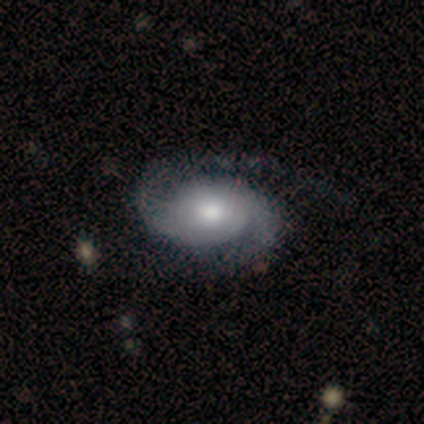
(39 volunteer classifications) Smooth or featured? featured or disk (92%)
Edge-on disk? no (97%)
Bar? no (83%)
Spiral arms? yes (100%)
Spiral winding? medium (57%)
Spiral arm count? 2 (89%)
Bulge size? moderate (54%)
Merging? none (58%)